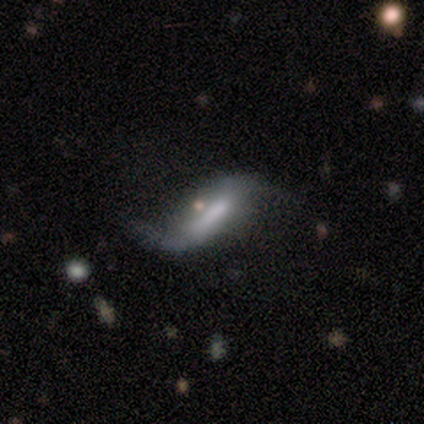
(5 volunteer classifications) Smooth or featured? 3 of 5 (60%) said featured or disk. Edge-on disk? 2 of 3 (67%) said no. Bar? 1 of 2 (50%, tied with weak) said strong. Spiral arms? 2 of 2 (100%) said yes. Spiral winding? 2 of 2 (100%) said loose. Spiral arm count? 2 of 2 (100%) said 2. Bulge size? 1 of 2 (50%, tied with none) said moderate. Merging? 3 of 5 (60%) said none.